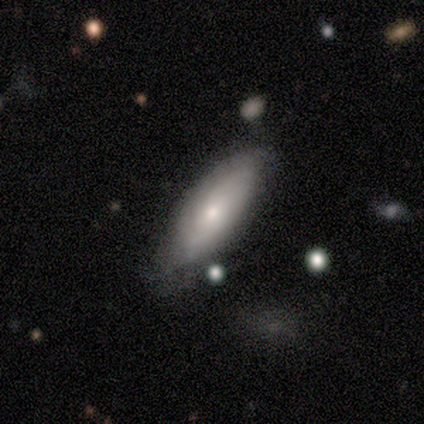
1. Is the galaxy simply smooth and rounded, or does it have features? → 50% smooth (tied), 50% featured or disk (tied), 0% star or artifact.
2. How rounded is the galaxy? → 80% in between, 20% cigar-shaped, 0% round.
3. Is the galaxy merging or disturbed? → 90% none, 10% minor disturbance, 0% major disturbance, 0% merger.